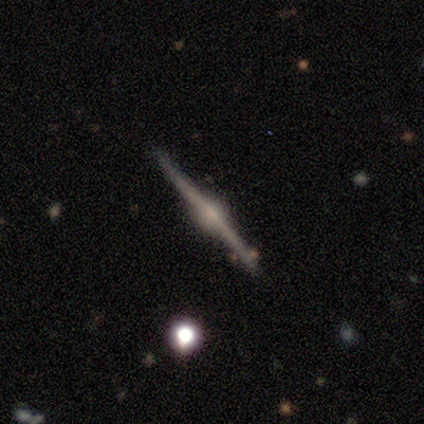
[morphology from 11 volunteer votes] A featured or disk galaxy (100%) viewed edge-on (100%) with a rounded central bulge (100%). Merging: none (91%).